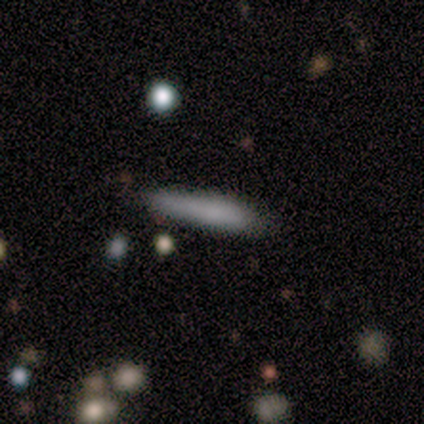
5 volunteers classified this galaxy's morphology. smooth_or_featured: smooth (p=1.00)
how_rounded: cigar-shaped (p=0.80) [alt: in between p=0.20]
merging: none (p=0.80) [alt: minor disturbance p=0.20]